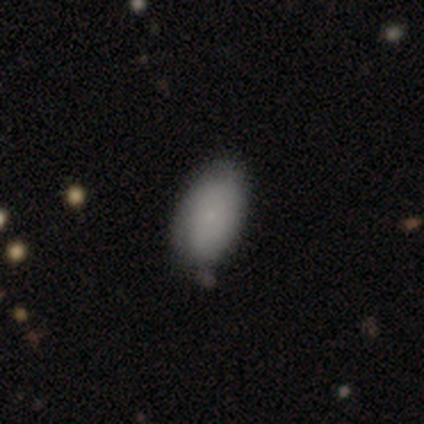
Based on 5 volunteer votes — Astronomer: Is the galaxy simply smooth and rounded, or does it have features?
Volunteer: smooth — 80%.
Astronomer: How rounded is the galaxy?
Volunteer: in between — 100%.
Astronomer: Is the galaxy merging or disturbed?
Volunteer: none — 80%.